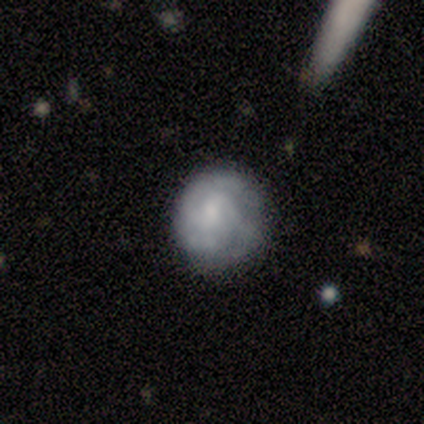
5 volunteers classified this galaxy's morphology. A featured or disk galaxy (60%) with no bar (67%), 2 (100%) tight (50%, tied with loose) spiral arms (67%) and no central bulge (67%).

Vote fractions:
- Smooth or featured? featured or disk: 60% / smooth: 40% / star or artifact: 0%
- Edge-on disk? no: 100% / yes: 0%
- Bar? no: 67% / weak: 33% / strong: 0%
- Spiral arms? yes: 67% / no: 33%
- Spiral winding? tight: 50% (tied) / loose: 50% (tied) / medium: 0%
- Spiral arm count? 2: 100% / 1: 0% / 3: 0% / 4: 0% / more than 4: 0% / can't tell: 0%
- Bulge size? none: 67% / small: 33% / dominant: 0% / large: 0% / moderate: 0%
- Merging? minor disturbance: 40% (tied) / major disturbance: 40% (tied) / none: 20% / merger: 0%